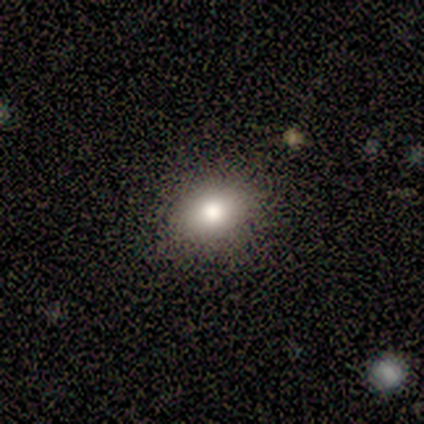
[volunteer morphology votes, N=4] type=smooth (75%); roundness=in between (67%); merging=none (67%).